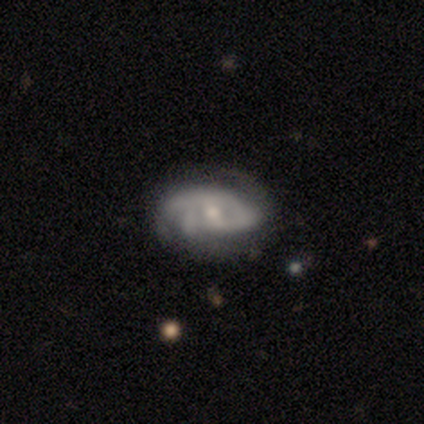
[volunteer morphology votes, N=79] Smooth or featured? featured or disk (86%)
Edge-on disk? no (99%)
Bar? no (48%)
Spiral arms? yes (87%)
Spiral winding? tight (50%)
Spiral arm count? can't tell (34%)
Bulge size? moderate (52%)
Merging? none (34%)